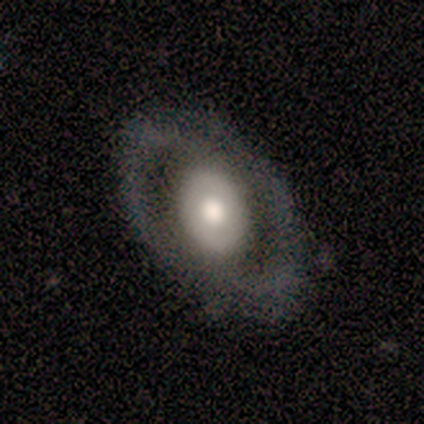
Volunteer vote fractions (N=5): Morphology: type=featured or disk (60%); edge-on=no (100%); bar=no (67%); spiral arms=no (67%); bulge=moderate (100%); merging=none (100%).